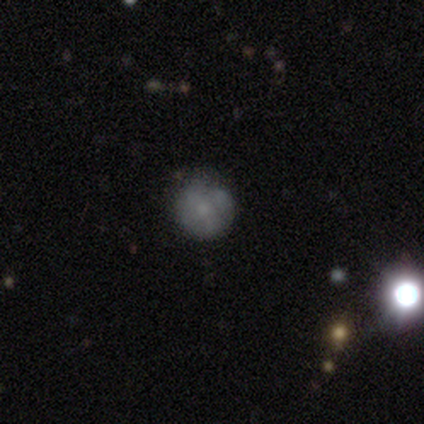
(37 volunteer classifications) smooth-or-featured: smooth: 46% | featured or disk: 30% | star or artifact: 24%
  how-rounded: round: 94% | in between: 6% | cigar-shaped: 0%
  merging: none: 57% | minor disturbance: 32% | merger: 7% | major disturbance: 4%